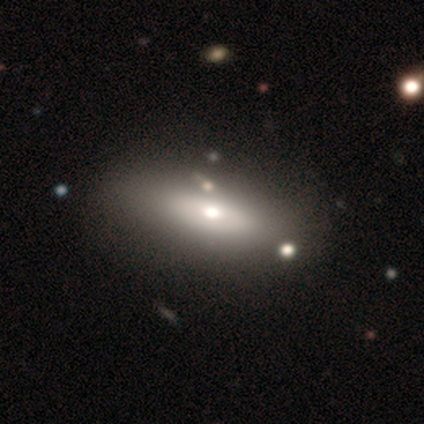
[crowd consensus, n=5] Volunteers were most divided on "merging": none: 80%, major disturbance: 20%, minor disturbance: 0%, merger: 0%. More confident: smooth or featured — smooth (100%); how rounded — in between (100%).